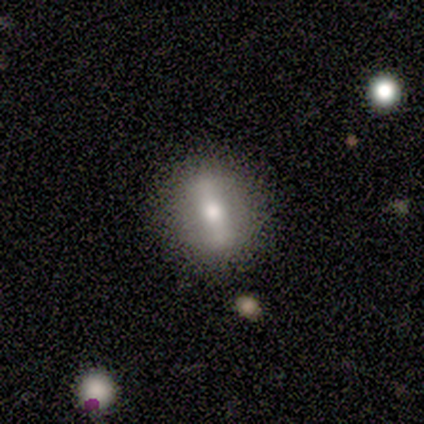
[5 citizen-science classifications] This appears to be a featured or disk galaxy (80%) viewed edge-on (50%, tied with no) with a rounded central bulge (100%). Merging: none (80%).